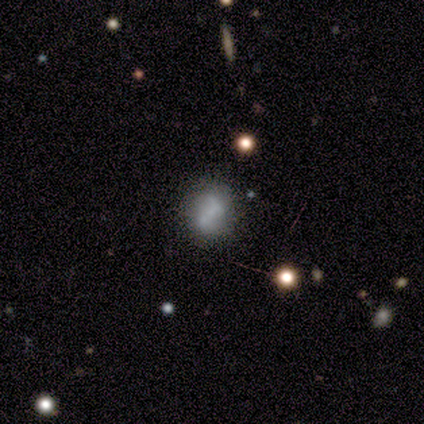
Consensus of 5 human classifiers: This is clearly a smooth galaxy (80%). How rounded: possibly round (50%). Merging: clearly none (80%).